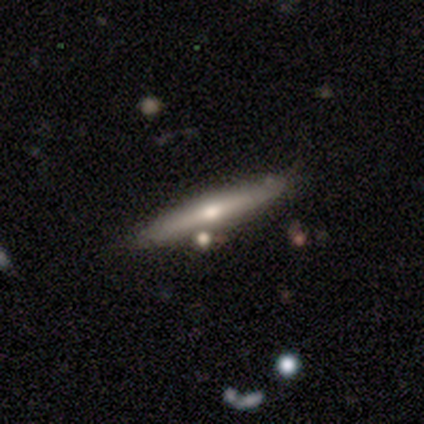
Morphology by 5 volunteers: smooth_or_featured: smooth (p=0.60) [alt: featured or disk p=0.40]
how_rounded: cigar-shaped (p=1.00)
merging: none (p=1.00)